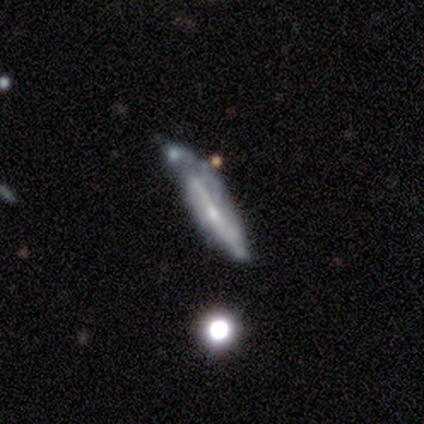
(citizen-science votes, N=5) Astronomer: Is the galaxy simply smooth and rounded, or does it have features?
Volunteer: featured or disk — 80%.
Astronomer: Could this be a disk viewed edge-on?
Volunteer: yes — 75%.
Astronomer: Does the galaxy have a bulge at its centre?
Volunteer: none — 67%.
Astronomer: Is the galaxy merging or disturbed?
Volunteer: none — 60% (runner-up: major disturbance, 40%).